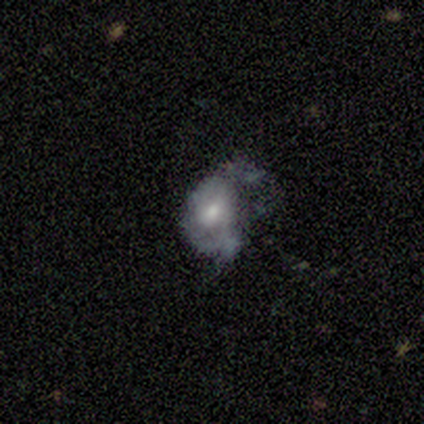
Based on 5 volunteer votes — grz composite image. It shows a featured or disk galaxy (80%) with no bar (75%), no spiral arms (75%) and a moderate central bulge (50%, tied with small). Merging: none (40%, tied with major disturbance).